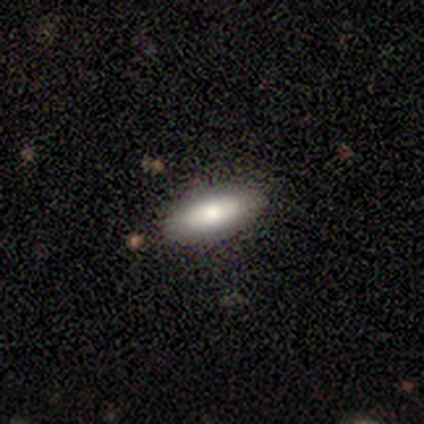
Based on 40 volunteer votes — Smooth or featured? smooth (82%)
How rounded? in between (70%)
Merging? none (92%)